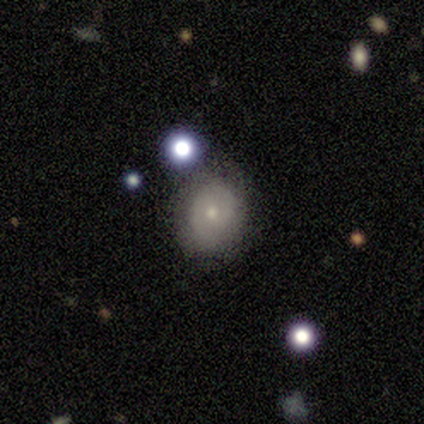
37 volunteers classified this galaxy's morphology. This appears to be a smooth galaxy with no disk features (57%) that is round (71%). Merging: none (76%).